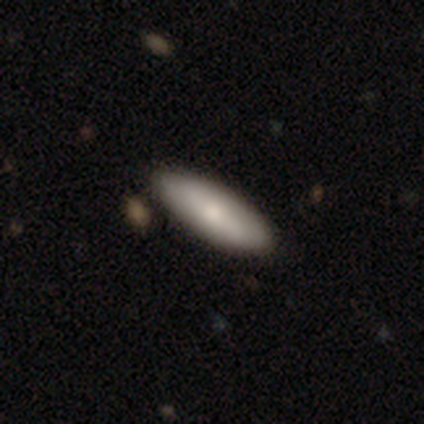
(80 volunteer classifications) Morphology: type=smooth (81%); roundness=in between (69%); merging=none (43%).